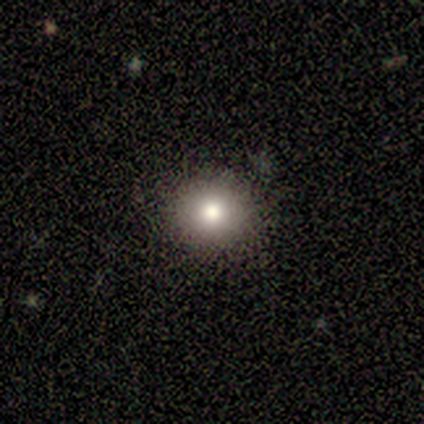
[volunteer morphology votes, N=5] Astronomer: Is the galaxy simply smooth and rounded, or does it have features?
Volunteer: smooth — 100%.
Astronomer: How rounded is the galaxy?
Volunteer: round — 80%.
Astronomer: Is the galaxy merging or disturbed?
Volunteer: none — 80%.